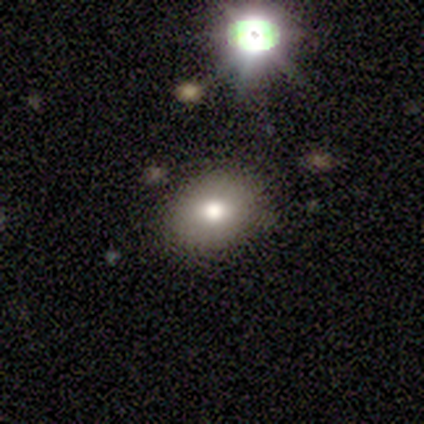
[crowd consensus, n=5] Smooth or featured?
  - smooth: 80% *
  - featured or disk: 20%
  - star or artifact: 0%
How rounded?
  - round: 50% * (tied)
  - in between: 50% * (tied)
  - cigar-shaped: 0%
Merging?
  - none: 80% *
  - minor disturbance: 20%
  - major disturbance: 0%
  - merger: 0%